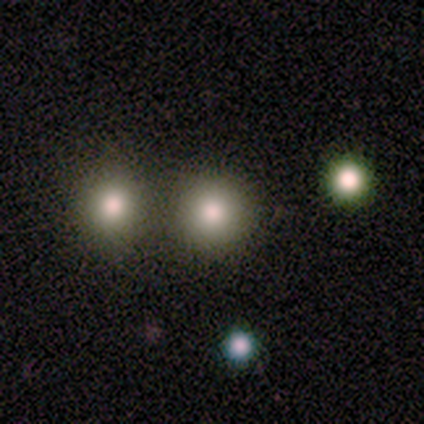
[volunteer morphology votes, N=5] This is clearly a smooth galaxy (80%). How rounded: clearly round (100%). Merging: clearly none (80%).